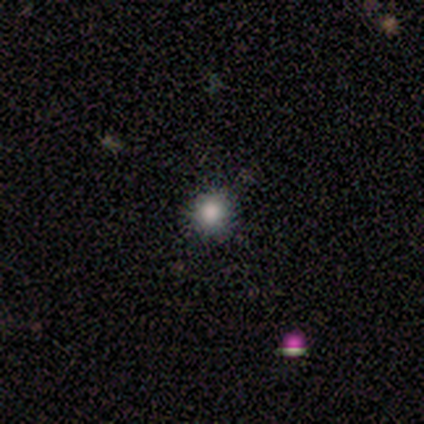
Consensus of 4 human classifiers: A smooth galaxy with no disk features (100%) that is round (100%).

Vote fractions:
- Smooth or featured? smooth: 100% / featured or disk: 0% / star or artifact: 0%
- How rounded? round: 100% / in between: 0% / cigar-shaped: 0%
- Merging? none: 75% / merger: 25% / minor disturbance: 0% / major disturbance: 0%